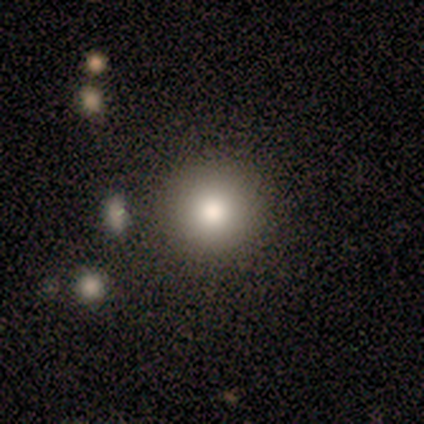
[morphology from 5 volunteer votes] Smooth or featured? smooth (80%)
How rounded? round (100%)
Merging? none (100%)